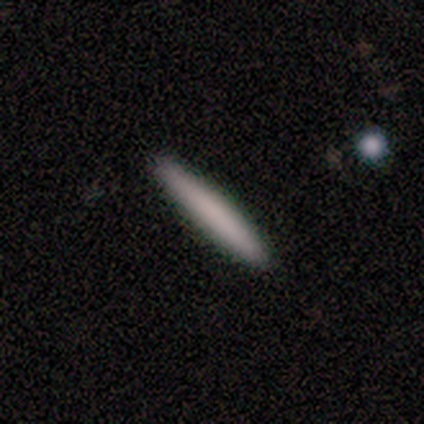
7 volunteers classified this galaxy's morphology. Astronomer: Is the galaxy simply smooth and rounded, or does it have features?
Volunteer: smooth — 71%.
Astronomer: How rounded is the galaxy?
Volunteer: cigar-shaped — 80%.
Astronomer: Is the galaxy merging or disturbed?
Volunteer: none — 86%.